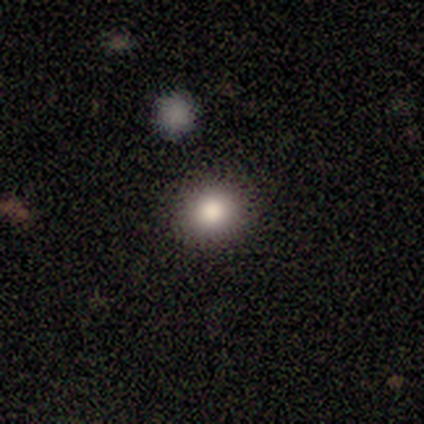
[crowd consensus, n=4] Q: Smooth or featured?
A: featured or disk (50%); runner-up: smooth (25%)
Q: Edge-on disk?
A: no (100%)
Q: Bar?
A: strong (50%); tied with: no (50%)
Q: Spiral arms?
A: no (100%)
Q: Bulge size?
A: dominant (50%); tied with: large (50%)
Q: Merging?
A: none (100%)